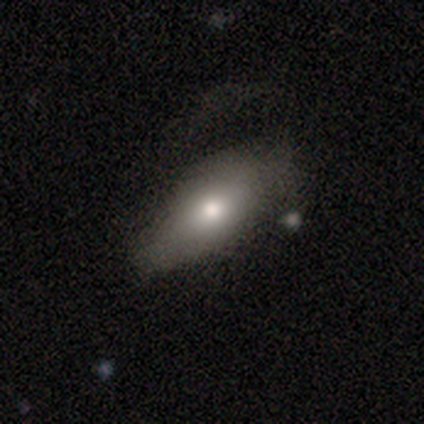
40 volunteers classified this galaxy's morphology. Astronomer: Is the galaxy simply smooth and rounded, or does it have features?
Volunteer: smooth — 75%.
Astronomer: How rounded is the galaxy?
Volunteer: in between — 90%.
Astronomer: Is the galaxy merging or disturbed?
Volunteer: none — 37% (runner-up: minor disturbance, 32%).